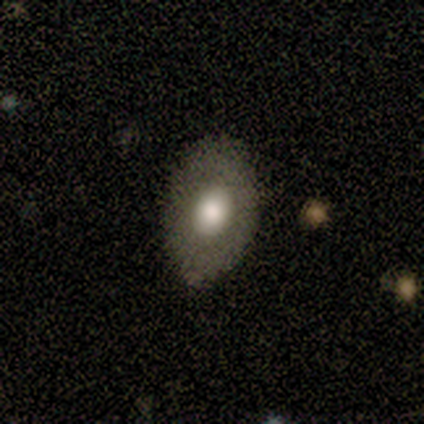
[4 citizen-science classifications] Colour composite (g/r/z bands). It shows a smooth galaxy with no disk features (75%) that is in between round and cigar-shaped (100%). Merging: none (67%).